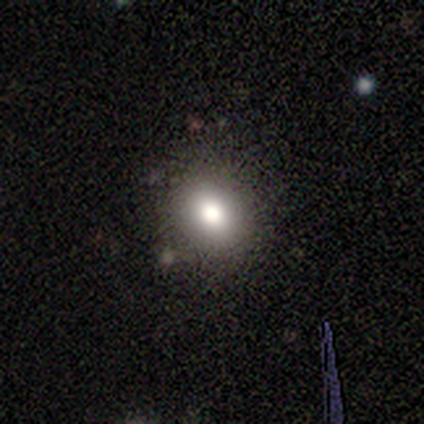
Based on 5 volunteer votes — smooth 60%, star or artifact 40%, featured or disk 0%. Down the decision tree: how rounded — round (100%); merging — none (100%).